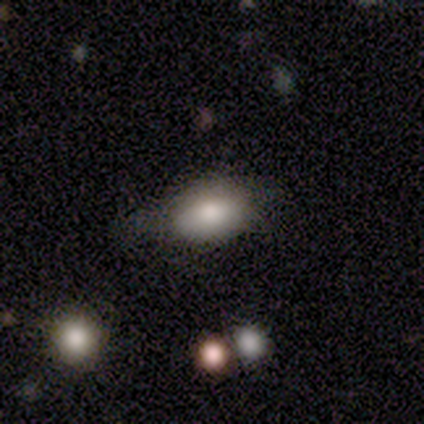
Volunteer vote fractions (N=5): smooth_or_featured: smooth (p=0.80) [alt: star or artifact p=0.20]
how_rounded: in between (p=1.00)
merging: none (p=0.75) [alt: minor disturbance p=0.25]